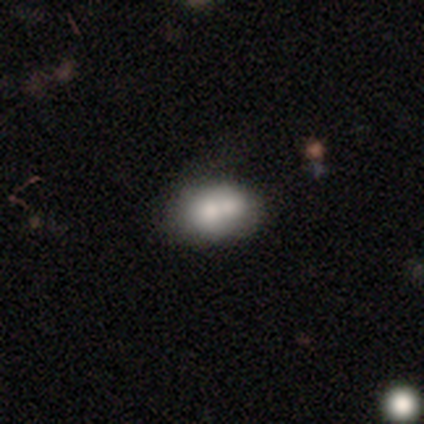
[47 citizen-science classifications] smooth 64%, featured or disk 28%, star or artifact 9%. Down the decision tree: how rounded — in between (67%); merging — merger (63%).